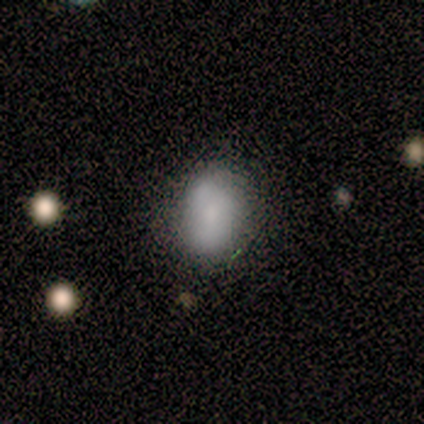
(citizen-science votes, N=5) smooth-or-featured: smooth: 80% | star or artifact: 20% | featured or disk: 0%
  how-rounded: in between: 75% | round: 25% | cigar-shaped: 0%
  merging: minor disturbance: 50% | none: 25% | major disturbance: 25% | merger: 0%